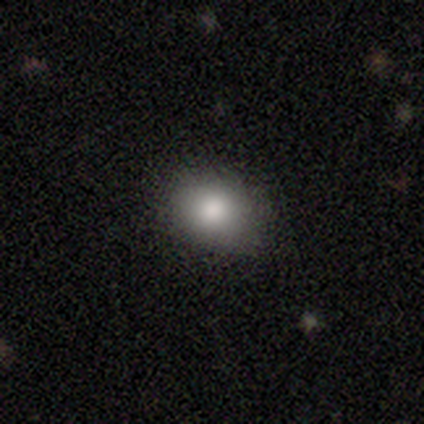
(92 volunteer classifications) Smooth or featured: smooth — 79% (star or artifact — 12%)
How rounded: round — 51% (in between — 49%)
Merging: none — 77% (minor disturbance — 16%)